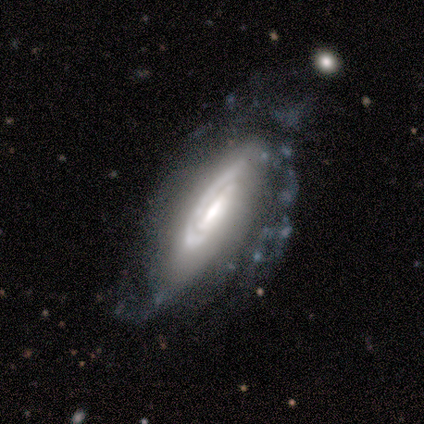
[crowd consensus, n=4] Smooth or featured?
  - featured or disk: 75% *
  - smooth: 25%
  - star or artifact: 0%
Edge-on disk?
  - no: 100% *
  - yes: 0%
Bar?
  - no: 67% *
  - strong: 33%
  - weak: 0%
Spiral arms?
  - yes: 100% *
  - no: 0%
Spiral winding?
  - tight: 33% * (tied)
  - medium: 33% * (tied)
  - loose: 33% * (tied)
Spiral arm count?
  - 1: 67% *
  - can't tell: 33%
  - 2: 0%
  - 3: 0%
  - 4: 0%
  - more than 4: 0%
Bulge size?
  - large: 33% * (tied)
  - moderate: 33% * (tied)
  - none: 33% * (tied)
  - dominant: 0%
  - small: 0%
Merging?
  - none: 25% * (tied)
  - minor disturbance: 25% * (tied)
  - major disturbance: 25% * (tied)
  - merger: 25% * (tied)